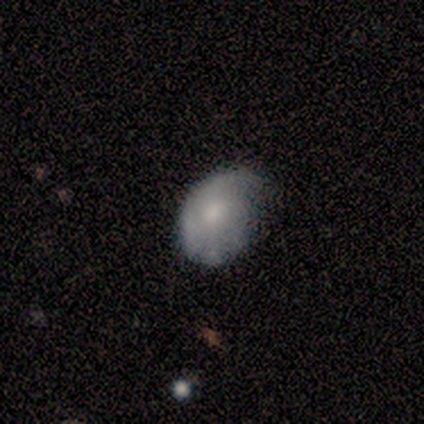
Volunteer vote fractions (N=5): smooth 100%, featured or disk 0%, star or artifact 0%. Down the decision tree: how rounded — in between (80%); merging — minor disturbance (60%).